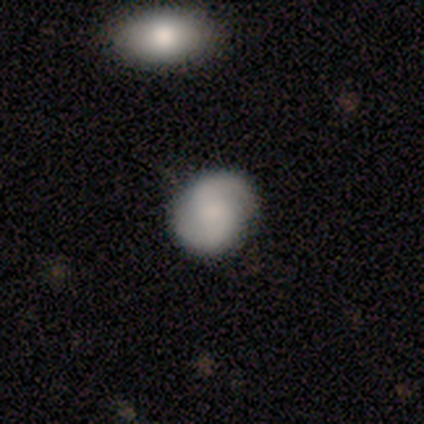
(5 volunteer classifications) Smooth or featured? featured or disk (60%)
Edge-on disk? no (100%)
Bar? weak (100%)
Spiral arms? yes (67%)
Spiral winding? tight (50%, tied with medium)
Spiral arm count? 2 (100%)
Bulge size? small (100%)
Merging? none (80%)